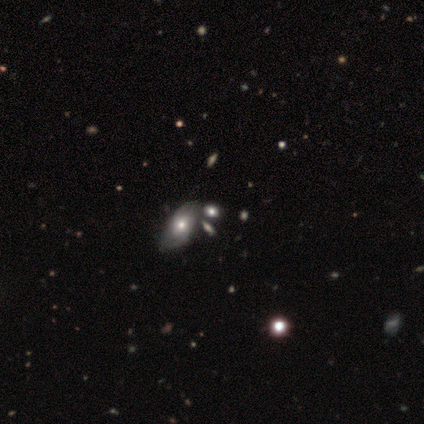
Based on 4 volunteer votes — Q: Smooth or featured?
A: smooth (75%); runner-up: featured or disk (25%)
Q: How rounded?
A: in between (67%); runner-up: cigar-shaped (33%)
Q: Merging?
A: none (50%); runner-up: minor disturbance (25%)